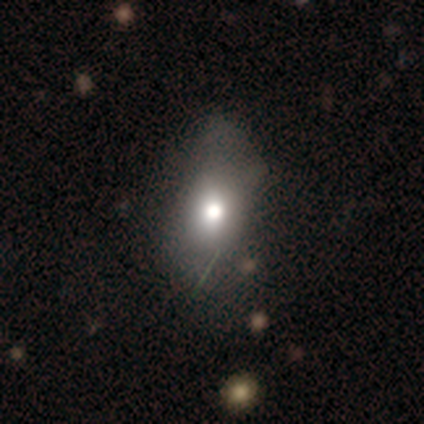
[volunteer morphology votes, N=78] Volunteers were most divided on "merging": none: 21%, minor disturbance: 16%, major disturbance: 16%, merger: 1%. More confident: how rounded — in between (71%); smooth or featured — smooth (67%).